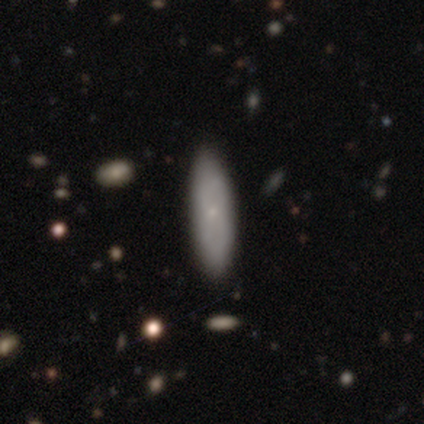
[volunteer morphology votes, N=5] Smooth or featured? smooth (80%)
How rounded? cigar-shaped (75%)
Merging? none (80%)